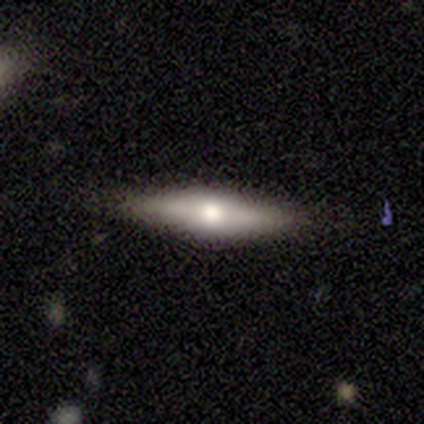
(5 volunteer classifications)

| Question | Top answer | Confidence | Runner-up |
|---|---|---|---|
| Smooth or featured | featured or disk | 60% | smooth (40%) |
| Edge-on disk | yes | 100% | — |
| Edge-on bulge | rounded | 67% | boxy (33%) |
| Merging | none | 100% | — |